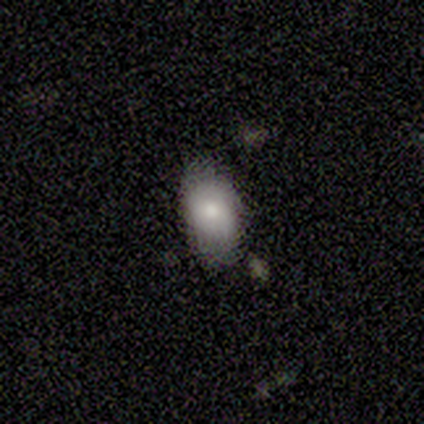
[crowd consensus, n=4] This appears to be a smooth galaxy with no disk features (100%) that is round (50%, tied with in between). Merging: none (75%).